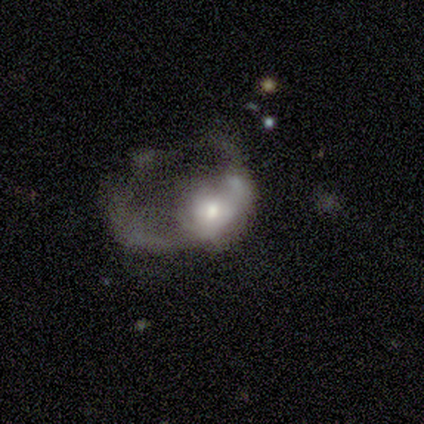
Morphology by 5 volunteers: smooth_or_featured: smooth (p=0.60) [alt: featured or disk p=0.40]
how_rounded: in between (p=0.67) [alt: round p=0.33]
merging: major disturbance (p=0.80) [alt: merger p=0.20]